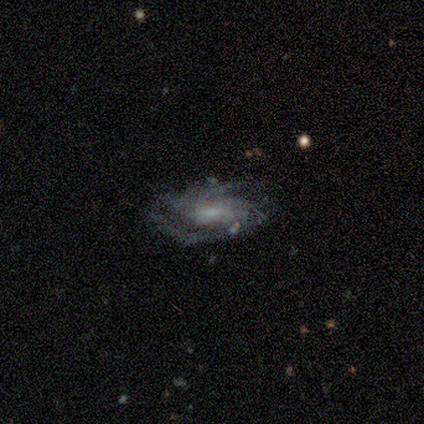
Volunteers were most divided on "merging": none: 50%, minor disturbance: 25%, major disturbance: 25%, merger: 0%. More confident: edge-on disk — no (100%); bar — weak (100%); spiral arms — yes (100%); spiral winding — medium (67%); spiral arm count — 2 (67%); bulge size — small (67%); smooth or featured — featured or disk (60%).